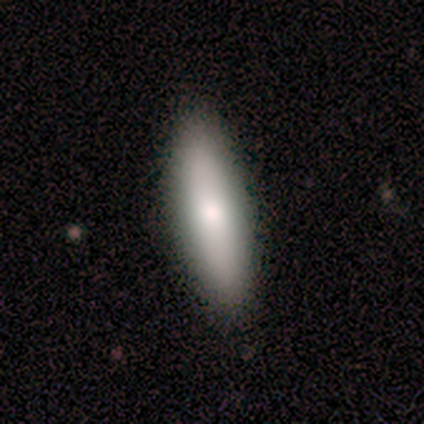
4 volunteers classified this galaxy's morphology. Smooth or featured: smooth — 100%
How rounded: in between — 100%
Merging: none — 100%